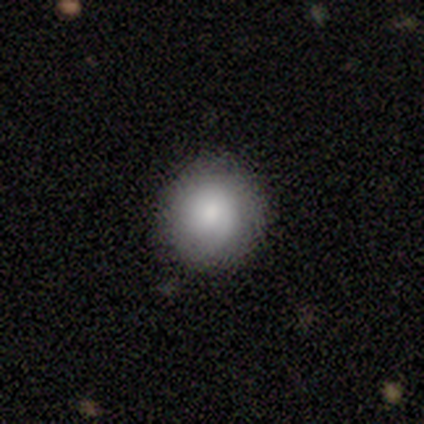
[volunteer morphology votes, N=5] Overall: smooth (100%). How rounded: round (80%). Merging: none (60%; minor disturbance 40%).